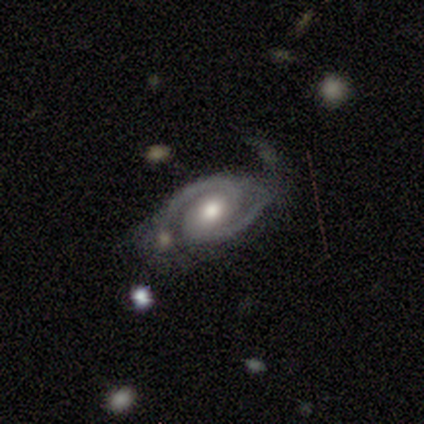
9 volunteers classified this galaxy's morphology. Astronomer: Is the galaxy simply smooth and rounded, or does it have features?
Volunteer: featured or disk — 100%.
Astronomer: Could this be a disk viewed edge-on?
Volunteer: no — 100%.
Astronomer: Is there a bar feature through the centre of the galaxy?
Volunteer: no — 44% (runner-up: weak, 33%).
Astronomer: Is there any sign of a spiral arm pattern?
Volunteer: yes — 100%.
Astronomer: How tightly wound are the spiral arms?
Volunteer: tight — 67%.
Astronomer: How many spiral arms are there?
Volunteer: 2 — 100%.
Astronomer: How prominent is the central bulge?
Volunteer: moderate — 89%.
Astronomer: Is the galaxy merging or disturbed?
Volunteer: none — 67%.